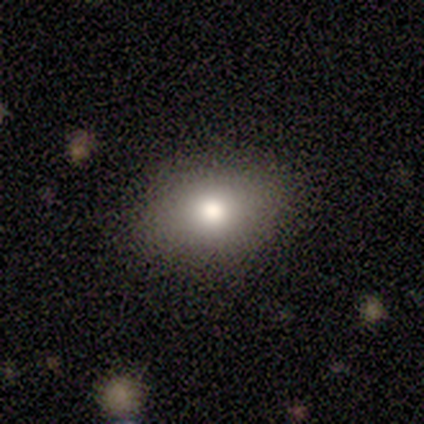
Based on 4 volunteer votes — Overall: smooth (100%). How rounded: in between (100%). Merging: none (75%).